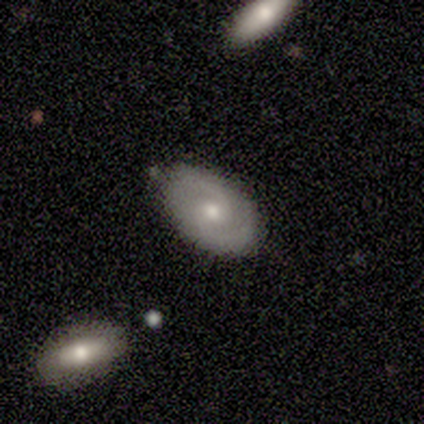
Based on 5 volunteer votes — Morphology: type=featured or disk (100%); edge-on=no (100%); bar=no (80%); spiral arms=yes (100%); winding=medium (40%, tied with loose); arm count=2 (80%); bulge=small (60%); merging=none (80%).